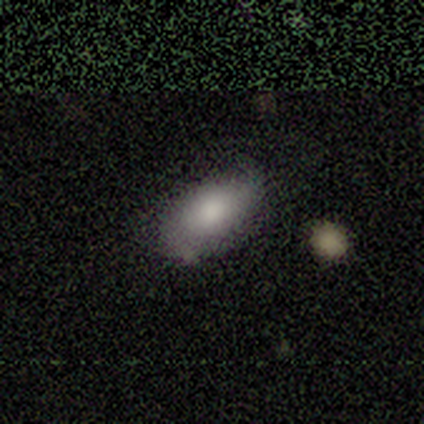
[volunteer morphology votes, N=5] smooth_or_featured: smooth (p=0.60) [alt: featured or disk p=0.40]
how_rounded: in between (p=0.67) [alt: round p=0.33]
merging: none (p=0.80) [alt: major disturbance p=0.20]